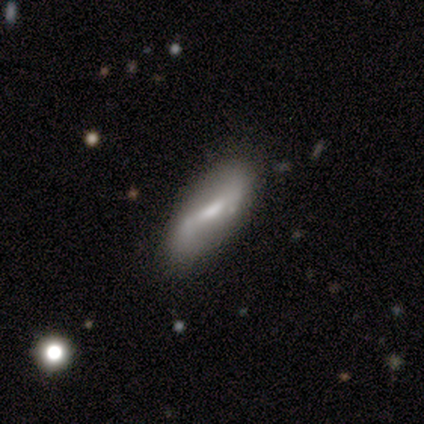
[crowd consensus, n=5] This appears to be a smooth galaxy with no disk features (60%) that is in between round and cigar-shaped (67%). Merging: none (80%).